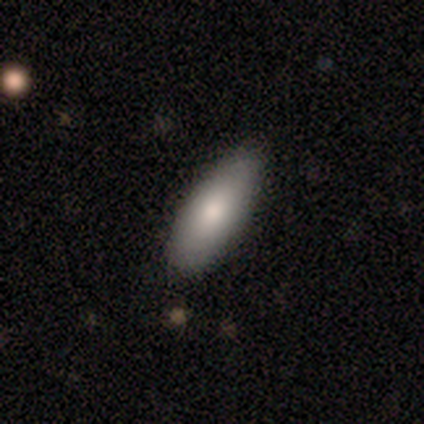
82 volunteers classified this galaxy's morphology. type=smooth (78%); roundness=in between (70%); merging=none (85%).